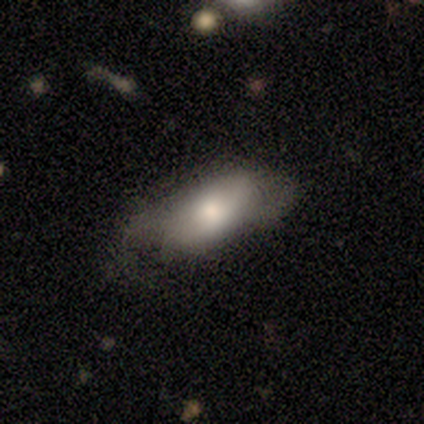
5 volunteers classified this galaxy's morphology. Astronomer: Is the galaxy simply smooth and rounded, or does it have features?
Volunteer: smooth — 80%.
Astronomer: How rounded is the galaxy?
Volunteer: in between — 50%, tied with cigar-shaped at 50%.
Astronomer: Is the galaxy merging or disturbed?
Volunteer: minor disturbance — 60%.